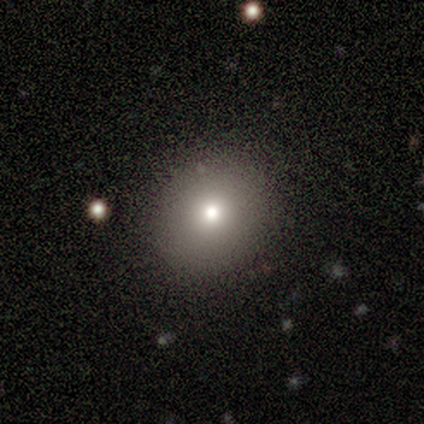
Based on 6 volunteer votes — smooth-or-featured: smooth: 100% | featured or disk: 0% | star or artifact: 0%
  how-rounded: round: 67% | in between: 33% | cigar-shaped: 0%
  merging: none: 100% | minor disturbance: 0% | major disturbance: 0% | merger: 0%